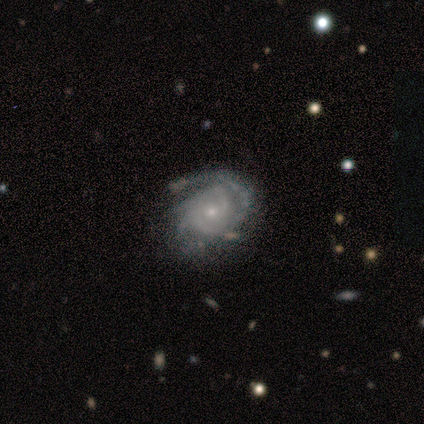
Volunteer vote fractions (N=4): A featured or disk galaxy (100%) with a weak bar (50%, tied with no), 2 (75%) tight (75%) spiral arms (100%) and a small central bulge (75%).

Vote fractions:
- Smooth or featured? featured or disk: 100% / smooth: 0% / star or artifact: 0%
- Edge-on disk? no: 100% / yes: 0%
- Bar? weak: 50% (tied) / no: 50% (tied) / strong: 0%
- Spiral arms? yes: 100% / no: 0%
- Spiral winding? tight: 75% / medium: 25% / loose: 0%
- Spiral arm count? 2: 75% / 4: 25% / 1: 0% / 3: 0% / more than 4: 0% / can't tell: 0%
- Bulge size? small: 75% / moderate: 25% / dominant: 0% / large: 0% / none: 0%
- Merging? none: 75% / minor disturbance: 25% / major disturbance: 0% / merger: 0%